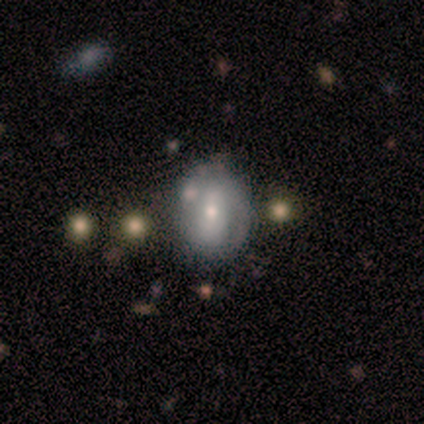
smooth 60%, featured or disk 40%, star or artifact 0%. Down the decision tree: how rounded — round (67%); merging — none (60%).